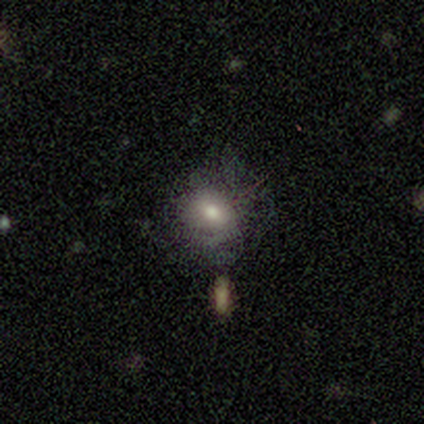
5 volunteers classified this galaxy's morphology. smooth_or_featured: smooth (p=0.80) [alt: featured or disk p=0.20]
how_rounded: round (p=0.75) [alt: in between p=0.25]
merging: major disturbance (p=0.40) [alt: none p=0.20]